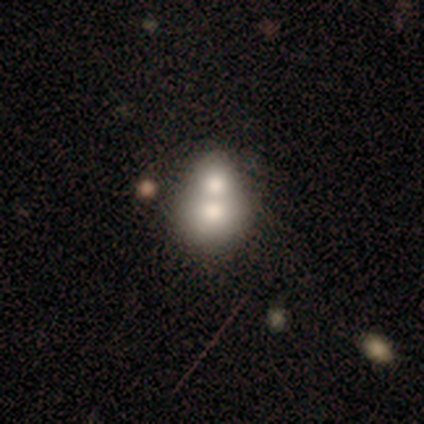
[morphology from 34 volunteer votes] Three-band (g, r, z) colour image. It shows a smooth galaxy with no disk features (59%) that is in between round and cigar-shaped (50%). Merging: merger (79%).